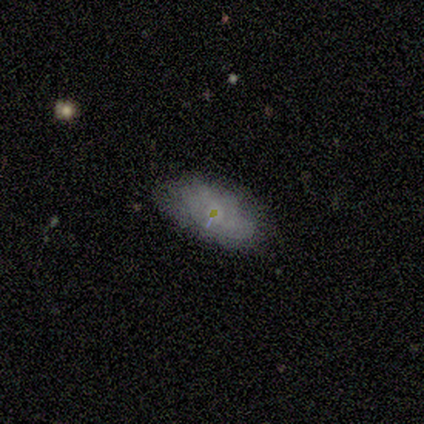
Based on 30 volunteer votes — smooth-or-featured: smooth: 80% | featured or disk: 13% | star or artifact: 7%
  how-rounded: in between: 92% | cigar-shaped: 8% | round: 0%
  merging: none: 82% | minor disturbance: 14% | major disturbance: 4% | merger: 0%